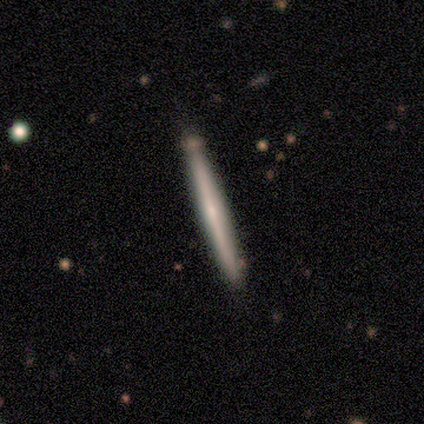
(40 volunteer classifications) Smooth or featured? 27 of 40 (68%) said featured or disk. Edge-on disk? 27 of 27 (100%) said yes. Edge-on bulge? 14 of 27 (52%) said none. Merging? 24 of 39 (62%) said none.